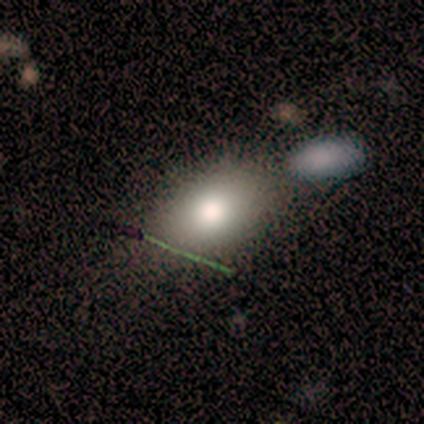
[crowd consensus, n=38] A smooth galaxy with no disk features (71%) that is in between round and cigar-shaped (81%).

Vote fractions:
- Smooth or featured? smooth: 71% / star or artifact: 16% / featured or disk: 13%
- How rounded? in between: 81% / round: 19% / cigar-shaped: 0%
- Merging? none: 62% / merger: 19% / minor disturbance: 9% / major disturbance: 9%